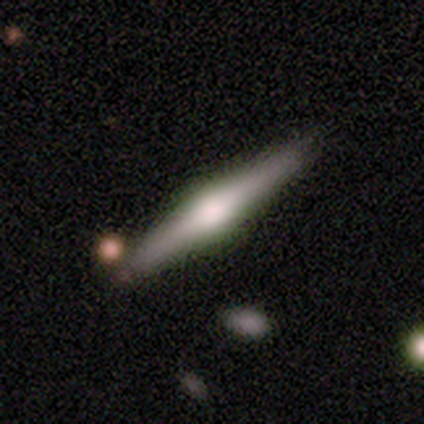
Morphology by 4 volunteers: Smooth or featured? 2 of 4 (50%) said featured or disk. Edge-on disk? 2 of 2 (100%) said yes. Edge-on bulge? 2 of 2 (100%) said rounded. Merging? 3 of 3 (100%) said none.